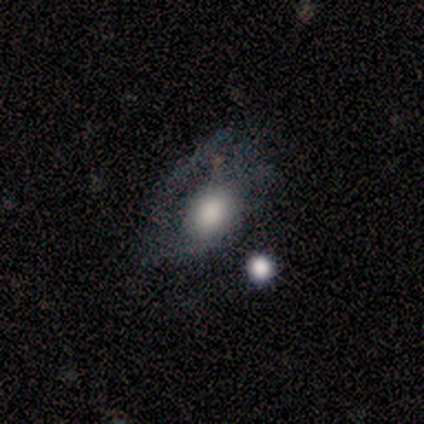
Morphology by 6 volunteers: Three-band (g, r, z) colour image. It shows a smooth galaxy with no disk features (50%) that is round (100%). Merging: none (40%, tied with major disturbance).